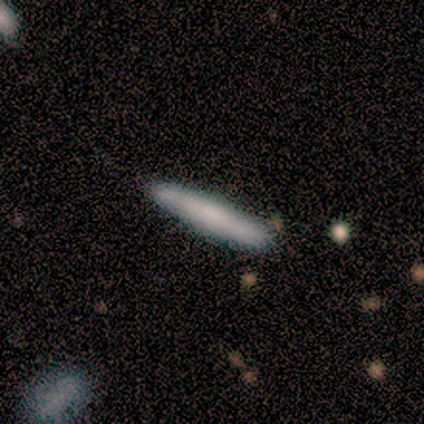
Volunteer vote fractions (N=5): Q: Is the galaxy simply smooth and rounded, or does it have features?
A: smooth — 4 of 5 (80%).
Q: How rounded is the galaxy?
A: cigar-shaped — 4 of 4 (100%).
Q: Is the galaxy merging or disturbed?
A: none — 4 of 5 (80%).